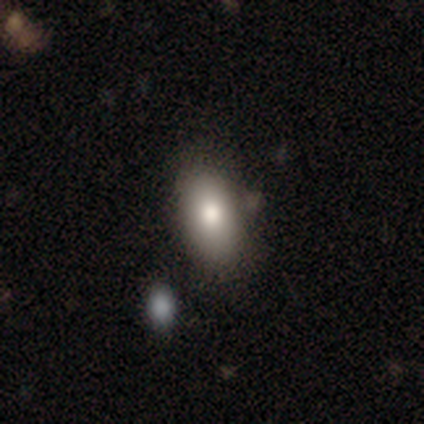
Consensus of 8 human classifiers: Q: Smooth or featured?
A: smooth (88%); runner-up: star or artifact (12%)
Q: How rounded?
A: in between (100%)
Q: Merging?
A: none (71%); runner-up: minor disturbance (29%)